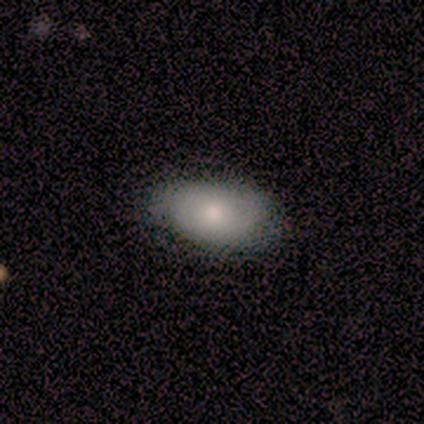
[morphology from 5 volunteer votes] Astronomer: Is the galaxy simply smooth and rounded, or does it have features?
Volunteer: smooth — 60% (runner-up: featured or disk, 40%).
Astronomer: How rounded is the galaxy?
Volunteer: in between — 100%.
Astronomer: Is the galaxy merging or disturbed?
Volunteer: none — 80%.